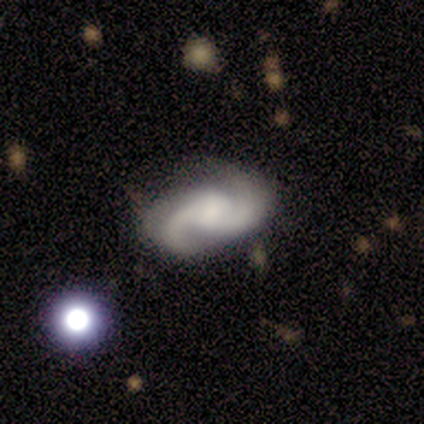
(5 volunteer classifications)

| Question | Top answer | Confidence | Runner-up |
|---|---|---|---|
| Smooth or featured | featured or disk | 80% | smooth (20%) |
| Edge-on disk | no | 100% | — |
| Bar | weak | 75% | no (25%) |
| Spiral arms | yes | 100% | — |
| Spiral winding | medium | 75% | loose (25%) |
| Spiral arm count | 2 | 100% | — |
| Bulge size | large | 50% | moderate (25%) |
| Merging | none | 80% | minor disturbance (20%) |